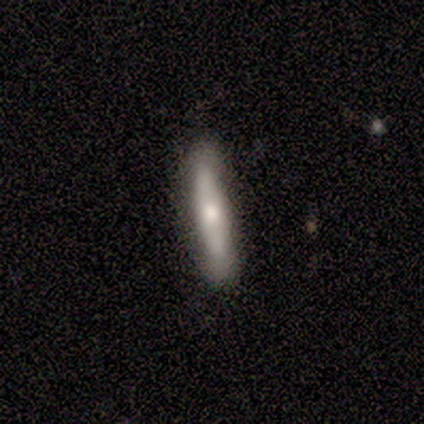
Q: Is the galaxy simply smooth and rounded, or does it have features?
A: smooth — 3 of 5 (60%).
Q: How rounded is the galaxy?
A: cigar-shaped — 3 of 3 (100%).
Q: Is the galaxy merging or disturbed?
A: none — 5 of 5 (100%).